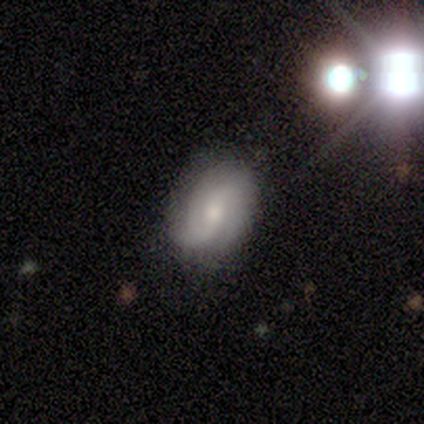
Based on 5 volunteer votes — Smooth or featured?
  - featured or disk: 80% *
  - smooth: 20%
  - star or artifact: 0%
Edge-on disk?
  - no: 100% *
  - yes: 0%
Bar?
  - no: 75% *
  - weak: 25%
  - strong: 0%
Spiral arms?
  - yes: 100% *
  - no: 0%
Spiral winding?
  - loose: 50% *
  - tight: 25%
  - medium: 25%
Spiral arm count?
  - 2: 50% *
  - 4: 25%
  - can't tell: 25%
  - 1: 0%
  - 3: 0%
  - more than 4: 0%
Bulge size?
  - small: 100% *
  - dominant: 0%
  - large: 0%
  - moderate: 0%
  - none: 0%
Merging?
  - none: 40% * (tied)
  - minor disturbance: 40% * (tied)
  - major disturbance: 20%
  - merger: 0%